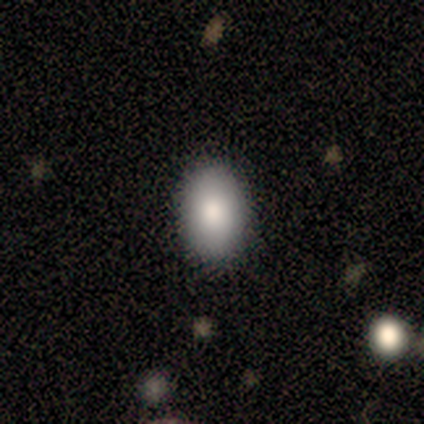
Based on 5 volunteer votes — This is clearly a smooth galaxy (100%). How rounded: clearly in between (100%). Merging: clearly none (100%).